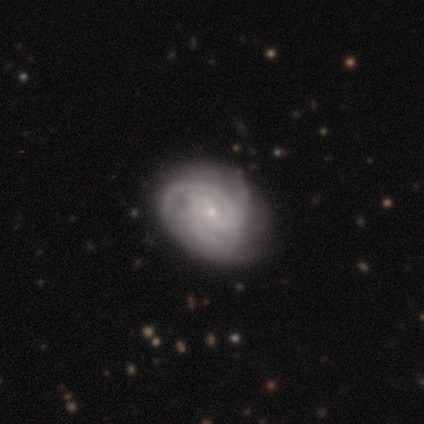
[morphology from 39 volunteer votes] Overall: featured or disk (87%). Edge-on disk: no (97%). Bar: no (61%; weak 21%). Spiral arms: yes (94%). Spiral arm count: 3 (45%; can't tell 29%). Spiral winding: tight (81%). Bulge size: small (85%). Merging: none (68%).